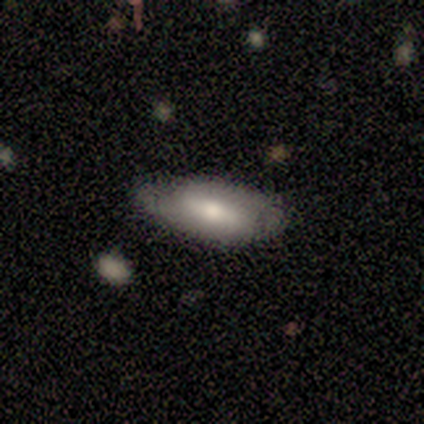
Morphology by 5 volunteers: Volunteers were most divided on "smooth or featured": featured or disk: 60%, smooth: 40%, star or artifact: 0%. More confident: edge-on disk — no (100%); spiral arms — yes (100%); bulge size — moderate (100%); bar — strong (67%); spiral winding — loose (67%); spiral arm count — 2 (67%); merging — none (60%).